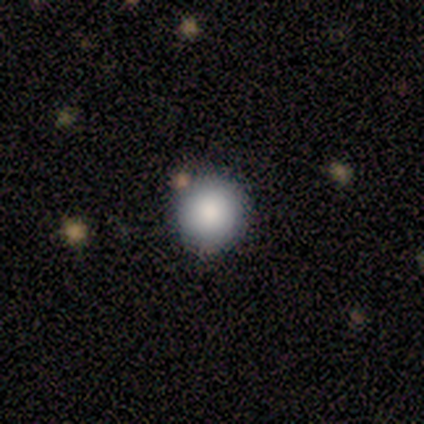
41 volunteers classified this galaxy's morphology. This is clearly a smooth galaxy (90%). How rounded: clearly round (100%). Merging: clearly none (92%).